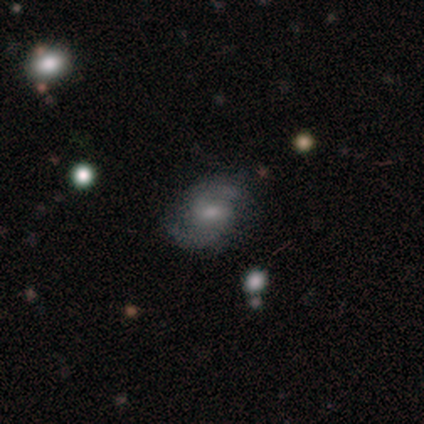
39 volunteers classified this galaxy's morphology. featured or disk 74%, smooth 21%, star or artifact 5%. Down the decision tree: edge-on disk — no (100%); bar — weak (66%); spiral arms — yes (100%); spiral arm count — 2 (97%); spiral winding — loose (48%); bulge size — moderate (59%); merging — none (76%).